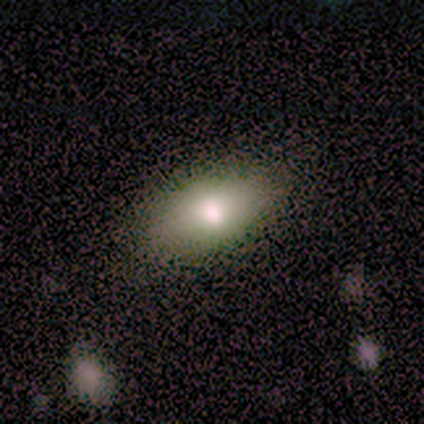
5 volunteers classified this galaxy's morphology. smooth 80%, featured or disk 20%, star or artifact 0%. Down the decision tree: how rounded — in between (100%); merging — none (80%).